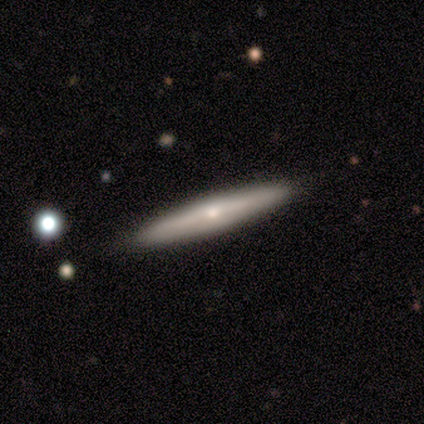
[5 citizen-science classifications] Smooth or featured? featured or disk (60%)
Edge-on disk? yes (100%)
Edge-on bulge? none (67%)
Merging? none (80%)